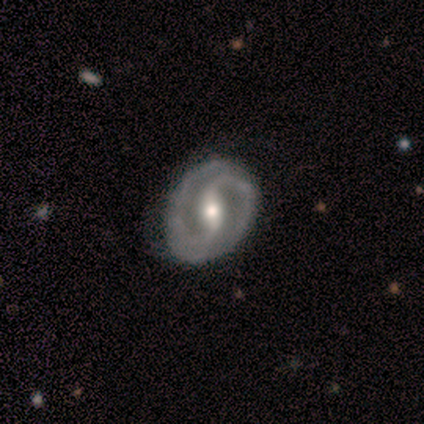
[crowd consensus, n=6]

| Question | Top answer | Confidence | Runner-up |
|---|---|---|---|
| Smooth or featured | featured or disk | 100% | — |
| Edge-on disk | no | 100% | — |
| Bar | no | 50% | strong (33%) |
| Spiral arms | yes | 100% | — |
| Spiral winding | tight | 50% | medium (33%) |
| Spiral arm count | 2 | 50% | can't tell (33%) |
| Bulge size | small | 67% | moderate (33%) |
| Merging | none | 100% | — |